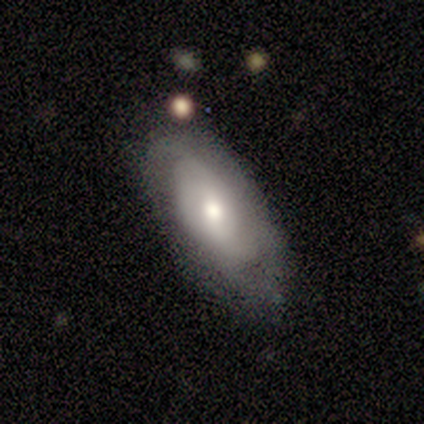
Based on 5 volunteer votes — A smooth galaxy with no disk features (60%) that is in between round and cigar-shaped (100%). Merging: none (80%).